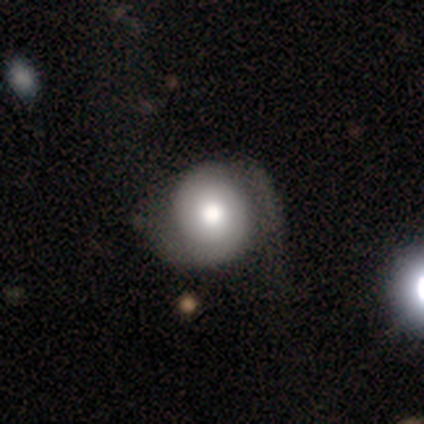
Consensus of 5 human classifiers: This is likely a smooth galaxy (60%). How rounded: likely round (67%). Merging: marginally none (40%, tied with major disturbance).